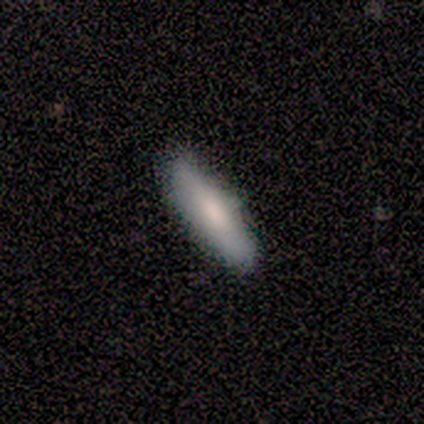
smooth-or-featured: smooth: 100% | featured or disk: 0% | star or artifact: 0%
  how-rounded: cigar-shaped: 100% | round: 0% | in between: 0%
  merging: none: 100% | minor disturbance: 0% | major disturbance: 0% | merger: 0%